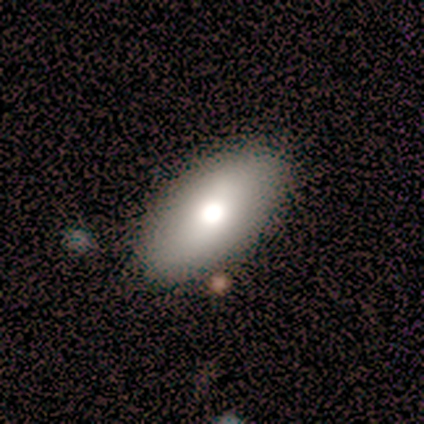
Overall: smooth (50%, tied with featured or disk). How rounded: in between (100%). Merging: none (83%).